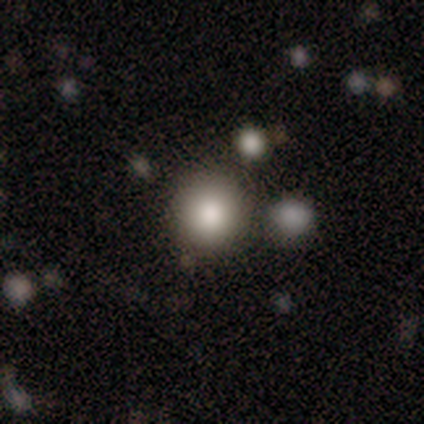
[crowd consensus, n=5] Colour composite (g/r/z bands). It shows a smooth galaxy with no disk features (100%) that is round (100%). Merging: none (100%).